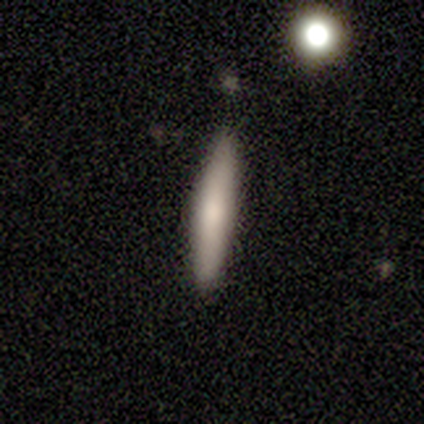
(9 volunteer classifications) Volunteers were most divided on "merging": none: 89%, minor disturbance: 11%, major disturbance: 0%, merger: 0%. More confident: smooth or featured — smooth (100%); how rounded — cigar-shaped (100%).